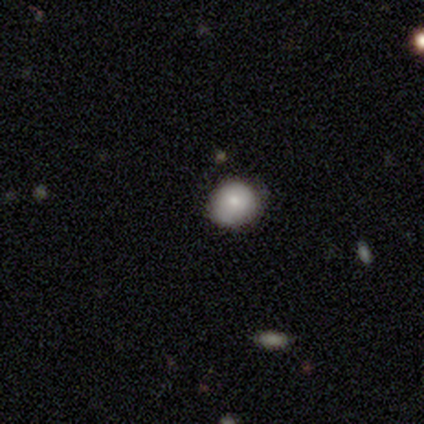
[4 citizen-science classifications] This appears to be a smooth galaxy with no disk features (100%) that is round (100%). Merging: none (75%).